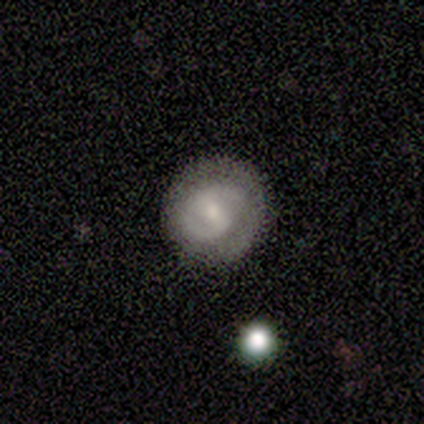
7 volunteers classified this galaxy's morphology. Smooth or featured? featured or disk (86%)
Edge-on disk? no (100%)
Bar? strong (33%, tied with weak and no)
Spiral arms? yes (100%)
Spiral winding? tight (50%, tied with medium)
Spiral arm count? 2 (100%)
Bulge size? moderate (67%)
Merging? none (100%)